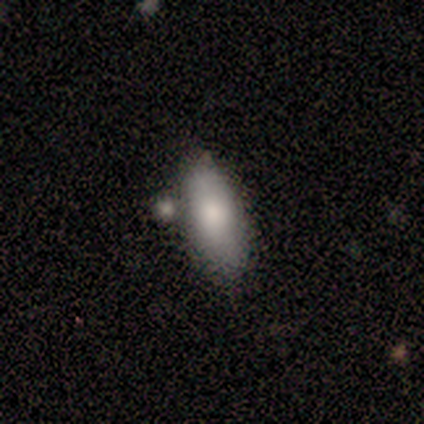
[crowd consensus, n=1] Q: Smooth or featured?
A: smooth (100%)
Q: How rounded?
A: in between (100%)
Q: Merging?
A: none (100%)